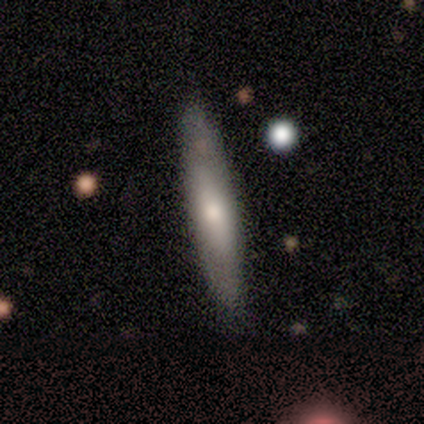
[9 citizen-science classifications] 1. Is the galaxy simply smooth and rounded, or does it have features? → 67% smooth, 33% featured or disk, 0% star or artifact.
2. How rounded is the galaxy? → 100% cigar-shaped, 0% round, 0% in between.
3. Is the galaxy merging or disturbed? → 89% none, 11% minor disturbance, 0% major disturbance, 0% merger.